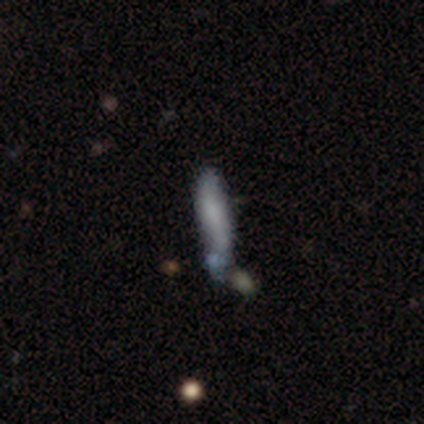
Overall: smooth (92%). How rounded: cigar-shaped (82%). Merging: minor disturbance (50%; none 25%).